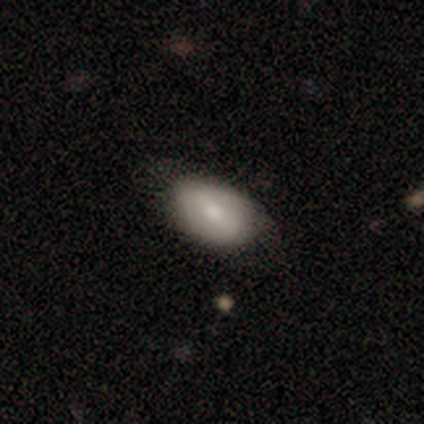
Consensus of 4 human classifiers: Overall: featured or disk (75%). Edge-on disk: no (100%). Bar: no (67%; weak 33%). Spiral arms: no (67%; yes 33%). Bulge size: moderate (67%; small 33%). Merging: minor disturbance (75%).